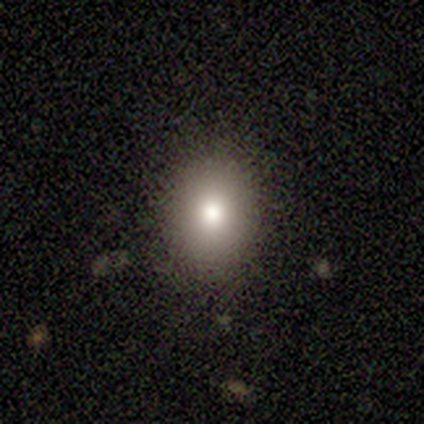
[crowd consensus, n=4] Overall: smooth (100%). How rounded: round (50%, tied with in between). Merging: none (100%).